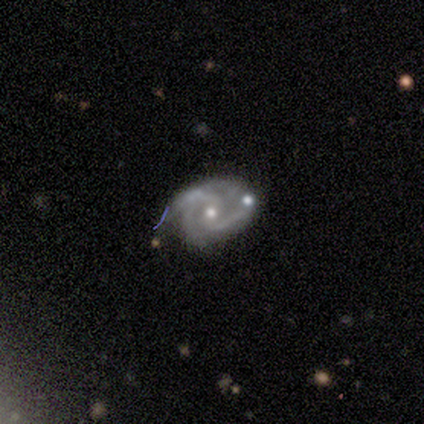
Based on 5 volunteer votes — A featured or disk galaxy (80%) with no bar (50%), 3 (50%) medium (75%) spiral arms (100%) and a moderate central bulge (50%, tied with small).

Vote fractions:
- Smooth or featured? featured or disk: 80% / star or artifact: 20% / smooth: 0%
- Edge-on disk? no: 100% / yes: 0%
- Bar? no: 50% / strong: 25% / weak: 25%
- Spiral arms? yes: 100% / no: 0%
- Spiral winding? medium: 75% / tight: 25% / loose: 0%
- Spiral arm count? 3: 50% / 2: 25% / 4: 25% / 1: 0% / more than 4: 0% / can't tell: 0%
- Bulge size? moderate: 50% (tied) / small: 50% (tied) / dominant: 0% / large: 0% / none: 0%
- Merging? none: 100% / minor disturbance: 0% / major disturbance: 0% / merger: 0%